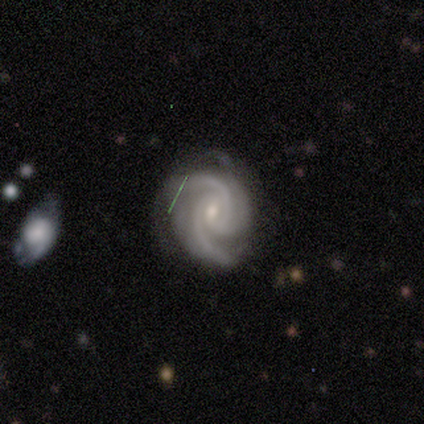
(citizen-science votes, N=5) This is clearly a featured or disk galaxy (100%). It is clearly not viewed edge-on (100%). Bar: likely no (60%). Spiral arm pattern: clearly yes (100%). Spiral arm count: clearly 3 (80%). Spiral winding: clearly medium (80%). Central bulge: likely small (60%). Merging: marginally none (40%, tied with major disturbance).